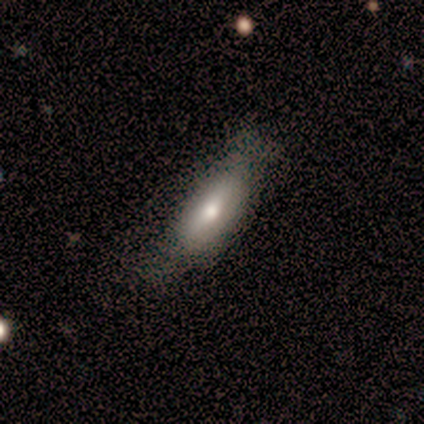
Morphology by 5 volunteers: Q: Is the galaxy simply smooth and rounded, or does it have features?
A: smooth — 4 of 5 (80%).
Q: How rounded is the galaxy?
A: cigar-shaped — 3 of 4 (75%).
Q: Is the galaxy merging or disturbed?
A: none — 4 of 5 (80%).